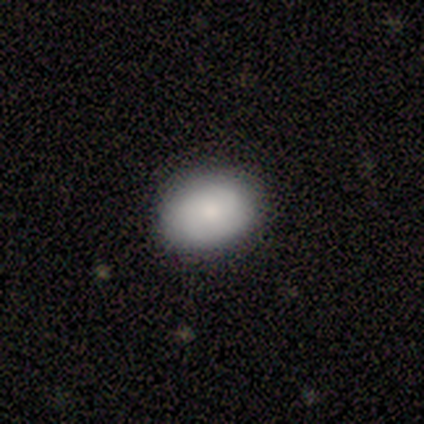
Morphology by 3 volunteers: Volunteers were most divided on "how rounded": in between: 67%, round: 33%, cigar-shaped: 0%. More confident: smooth or featured — smooth (100%); merging — none (100%).